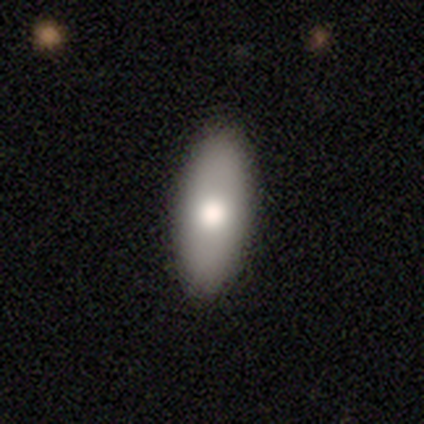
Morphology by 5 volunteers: This appears to be a smooth galaxy with no disk features (60%) that is in between round and cigar-shaped (100%). Merging: none (100%).